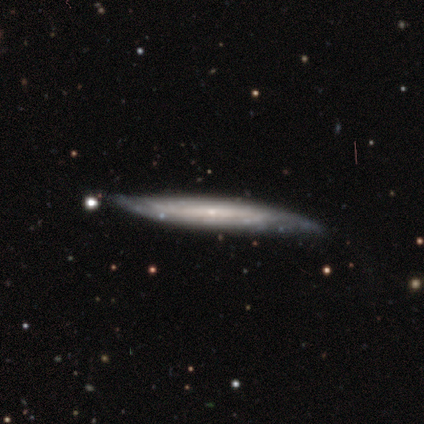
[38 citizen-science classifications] smooth-or-featured: featured or disk: 68% | smooth: 21% | star or artifact: 11%
  disk-edge-on: yes: 88% | no: 12%
    edge-on-bulge: none: 83% | rounded: 13% | boxy: 4%
  merging: none: 71% | minor disturbance: 24% | major disturbance: 3% | merger: 3%